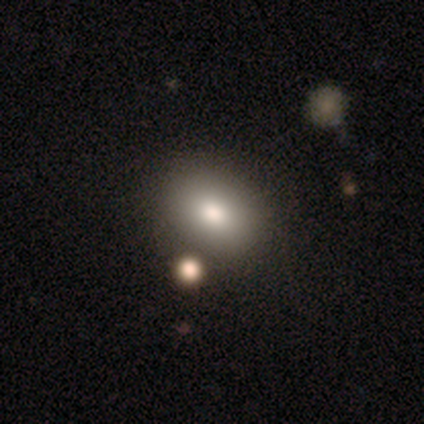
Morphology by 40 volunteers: A smooth galaxy with no disk features (85%) that is in between round and cigar-shaped (76%). Merging: none (74%).